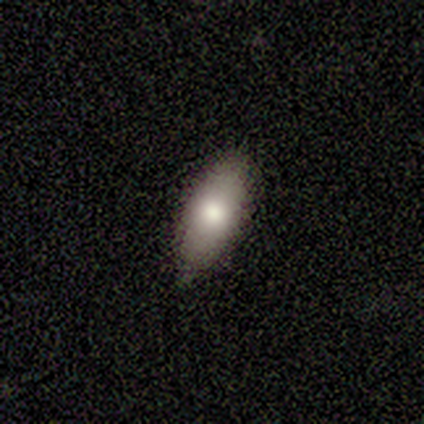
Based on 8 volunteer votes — A smooth galaxy with no disk features (75%) that is in between round and cigar-shaped (100%). Merging: none (88%).